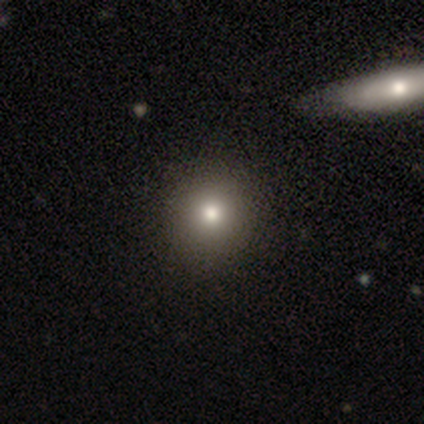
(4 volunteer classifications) featured or disk 50%, smooth 25%, star or artifact 25%. Down the decision tree: edge-on disk — no (100%); bar — no (100%); spiral arms — no (100%); bulge size — moderate (100%); merging — none (67%).